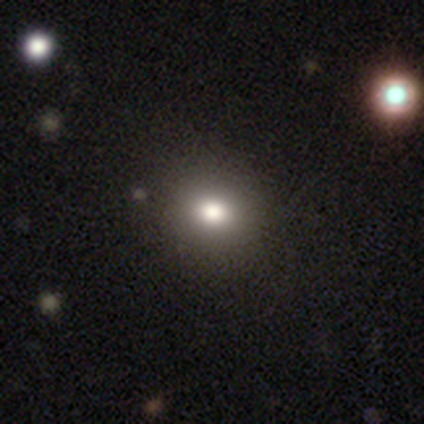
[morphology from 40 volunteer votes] This appears to be a smooth galaxy with no disk features (78%) that is round (71%). Merging: none (68%).